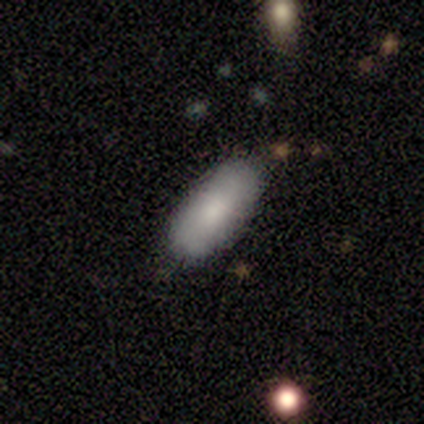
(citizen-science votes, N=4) A smooth galaxy with no disk features (75%) that is in between round and cigar-shaped (67%). Merging: none (100%).